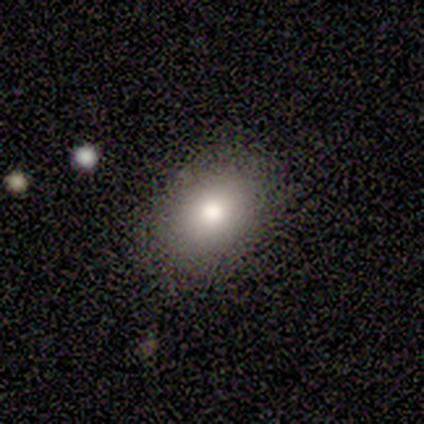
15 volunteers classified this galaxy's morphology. Overall: smooth (93%). How rounded: in between (79%). Merging: none (79%).